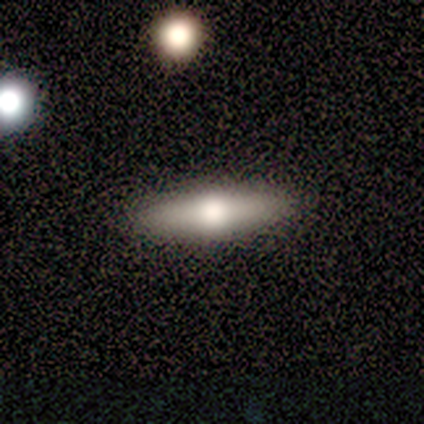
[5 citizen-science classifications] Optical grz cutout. It shows a featured or disk galaxy (60%) viewed edge-on (100%) with a rounded central bulge (67%). Merging: none (60%).